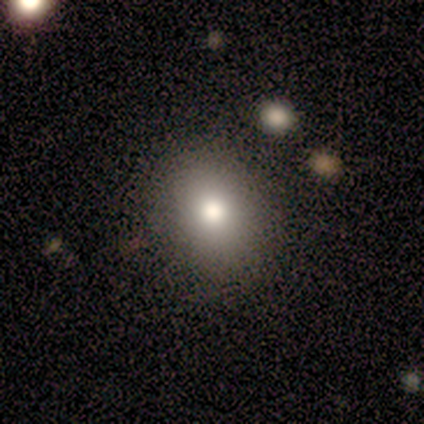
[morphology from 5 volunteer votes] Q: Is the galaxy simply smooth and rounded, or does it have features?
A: smooth — 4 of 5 (80%).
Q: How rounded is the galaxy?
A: in between — 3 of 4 (75%).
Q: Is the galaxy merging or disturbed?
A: none — 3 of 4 (75%).